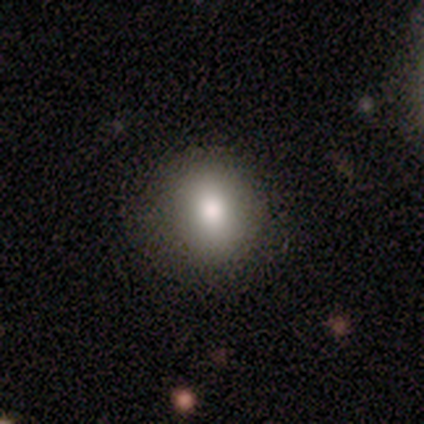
Morphology: type=smooth (100%); roundness=round (60%); merging=none (100%).